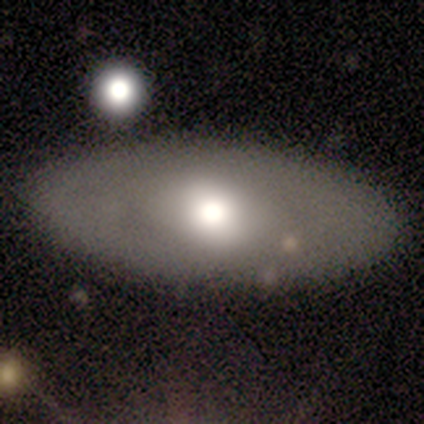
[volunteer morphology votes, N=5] Smooth or featured? featured or disk (80%)
Edge-on disk? yes (50%, tied with no)
Edge-on bulge? rounded (100%)
Merging? none (80%)